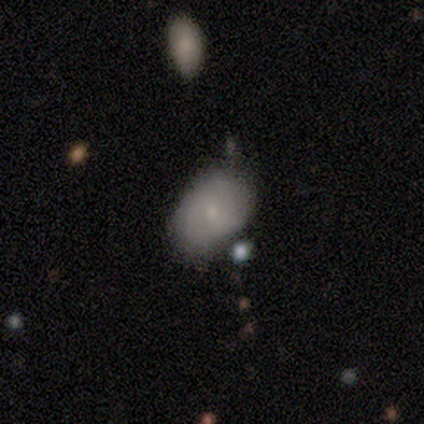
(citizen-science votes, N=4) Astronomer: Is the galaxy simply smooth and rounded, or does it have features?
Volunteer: smooth — 50%, tied with featured or disk at 50%.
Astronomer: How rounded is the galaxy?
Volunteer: in between — 100%.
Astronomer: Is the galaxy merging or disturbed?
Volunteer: none — 75%.